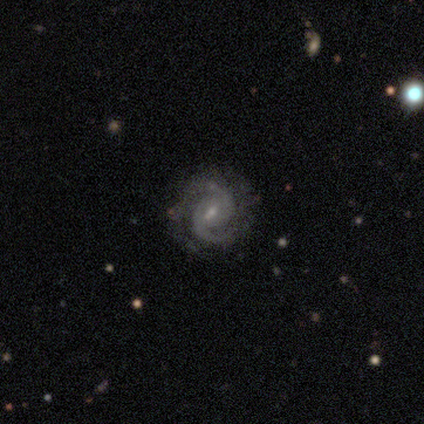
Smooth or featured? featured or disk (100%)
Edge-on disk? no (100%)
Bar? weak (65%)
Spiral arms? yes (100%)
Spiral winding? tight (52%)
Spiral arm count? 2 (88%)
Bulge size? small (62%)
Merging? none (62%)